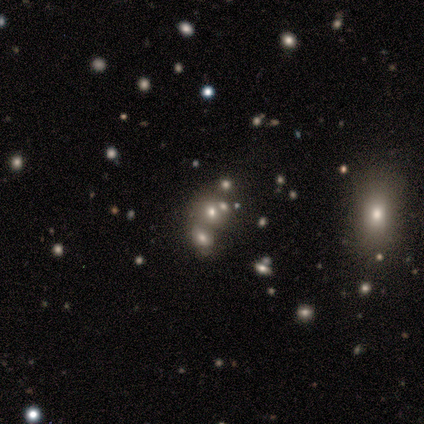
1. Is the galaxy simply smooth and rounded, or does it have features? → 60% star or artifact, 40% smooth, 0% featured or disk.